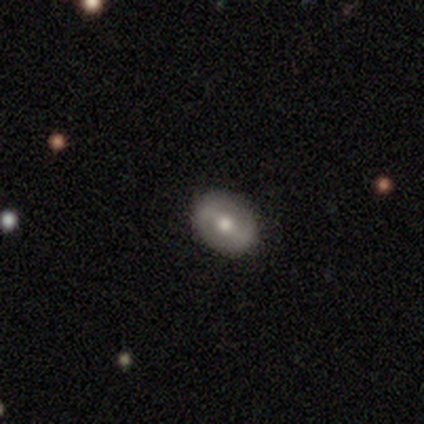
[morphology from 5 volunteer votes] Smooth or featured?
  - featured or disk: 60% *
  - smooth: 40%
  - star or artifact: 0%
Edge-on disk?
  - no: 67% *
  - yes: 33%
Bar?
  - weak: 50% * (tied)
  - no: 50% * (tied)
  - strong: 0%
Spiral arms?
  - yes: 50% * (tied)
  - no: 50% * (tied)
Spiral winding?
  - tight: 100% *
  - medium: 0%
  - loose: 0%
Spiral arm count?
  - 2: 100% *
  - 1: 0%
  - 3: 0%
  - 4: 0%
  - more than 4: 0%
  - can't tell: 0%
Bulge size?
  - moderate: 50% * (tied)
  - small: 50% * (tied)
  - dominant: 0%
  - large: 0%
  - none: 0%
Merging?
  - none: 100% *
  - minor disturbance: 0%
  - major disturbance: 0%
  - merger: 0%